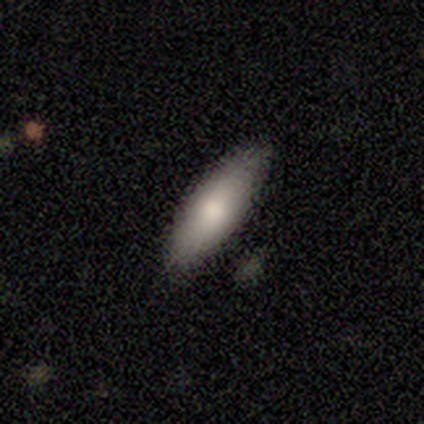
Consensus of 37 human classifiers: Overall: smooth (86%). How rounded: in between (72%). Merging: none (81%).